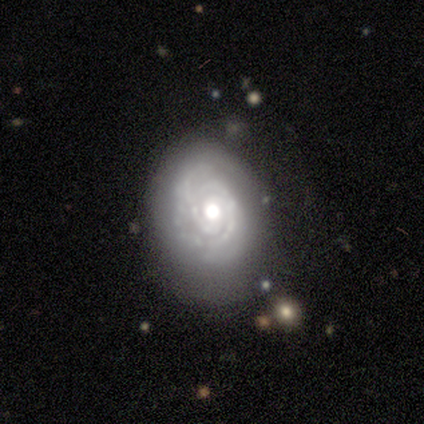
Smooth or featured: featured or disk — 90% (smooth — 10%)
Edge-on disk: no — 100%
Bar: no — 67% (weak — 22%)
Spiral arms: yes — 78% (no — 22%)
Spiral winding: tight — 86% (medium — 14%)
Spiral arm count: 3 — 57% (2 — 29%)
Bulge size: moderate — 67% (large — 22%)
Merging: minor disturbance — 50% (none — 40%)